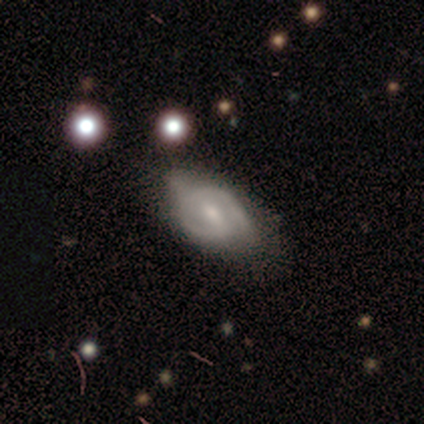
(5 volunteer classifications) This is clearly a featured or disk galaxy (80%). It is clearly not viewed edge-on (100%). Bar: likely weak (75%). Spiral arm pattern: clearly yes (100%). Spiral arm count: likely 2 (75%). Spiral winding: likely medium (75%). Central bulge: possibly small (50%). Merging: marginally none (40%, tied with minor disturbance).